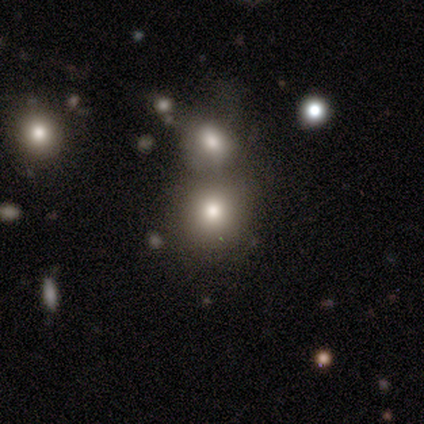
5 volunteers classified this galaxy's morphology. Smooth or featured?
  - smooth: 100% *
  - featured or disk: 0%
  - star or artifact: 0%
How rounded?
  - round: 100% *
  - in between: 0%
  - cigar-shaped: 0%
Merging?
  - none: 80% *
  - merger: 20%
  - minor disturbance: 0%
  - major disturbance: 0%